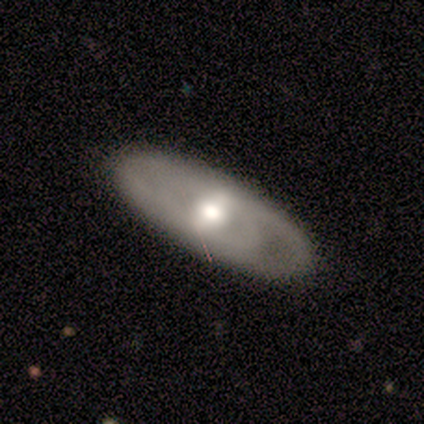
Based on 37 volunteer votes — Morphology: type=featured or disk (54%); edge-on=no (85%); bar=weak (53%); spiral arms=yes (76%); winding=medium (46%); arm count=2 (46%, tied with can't tell); bulge=moderate (76%); merging=none (92%).